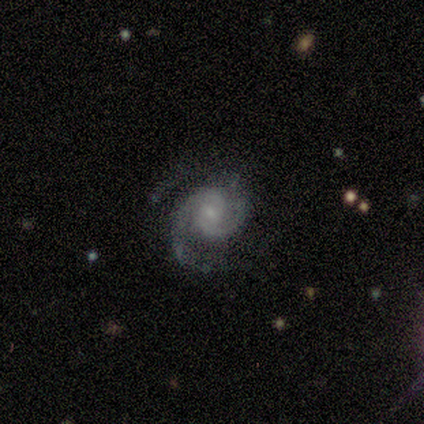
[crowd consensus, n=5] Volunteers were most divided on "merging": minor disturbance: 60%, none: 40%, major disturbance: 0%, merger: 0%. More confident: edge-on disk — no (100%); spiral arms — yes (100%); spiral arm count — 2 (100%); bulge size — small (100%); smooth or featured — featured or disk (80%); spiral winding — tight (75%); bar — weak (50%).